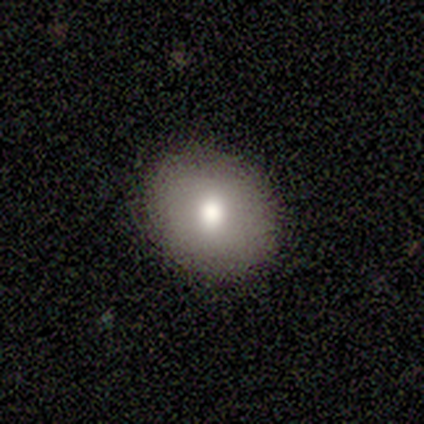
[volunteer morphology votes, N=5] smooth_or_featured: smooth (p=1.00)
how_rounded: round (p=0.60) [alt: in between p=0.40]
merging: none (p=0.60) [alt: minor disturbance p=0.40]